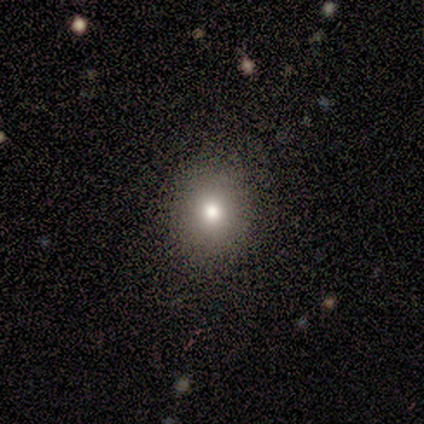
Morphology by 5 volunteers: Smooth or featured? 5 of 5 (100%) said smooth. How rounded? 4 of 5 (80%) said round. Merging? 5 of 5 (100%) said none.